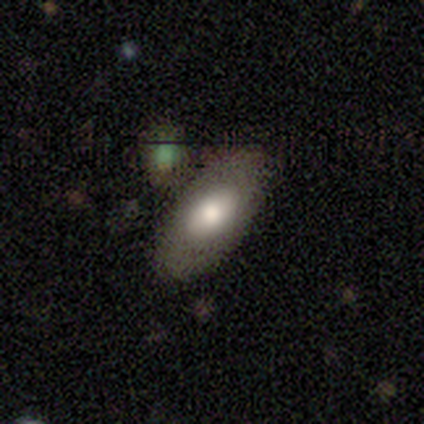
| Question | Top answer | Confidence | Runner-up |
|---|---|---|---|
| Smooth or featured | featured or disk | 60% | smooth (20%) |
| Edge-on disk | no | 100% | — |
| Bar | no | 67% | weak (33%) |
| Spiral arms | no | 67% | yes (33%) |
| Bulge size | large | 67% | moderate (33%) |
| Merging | none | 50% | minor disturbance (25%) |